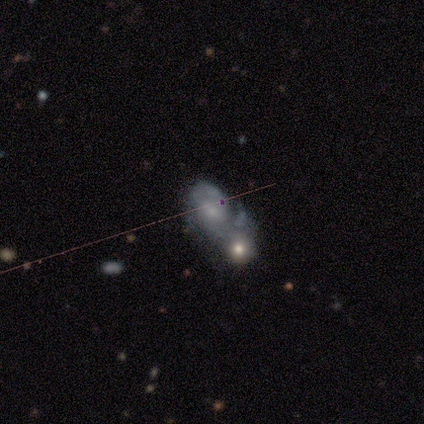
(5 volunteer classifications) Q: Smooth or featured?
A: featured or disk (80%); runner-up: star or artifact (20%)
Q: Edge-on disk?
A: no (100%)
Q: Bar?
A: no (75%); runner-up: weak (25%)
Q: Spiral arms?
A: yes (100%)
Q: Spiral winding?
A: medium (75%); runner-up: tight (25%)
Q: Spiral arm count?
A: 2 (50%); runner-up: 1 (25%)
Q: Bulge size?
A: moderate (50%); tied with: small (50%)
Q: Merging?
A: none (25%); tied with: minor disturbance (25%); major disturbance (25%); merger (25%)